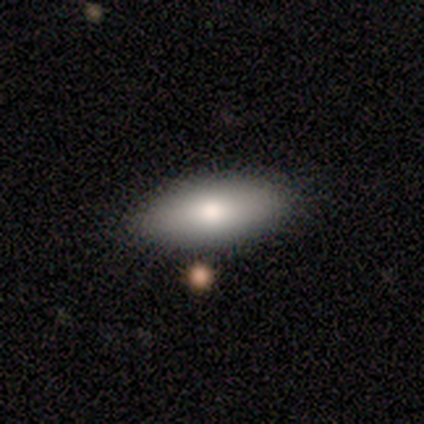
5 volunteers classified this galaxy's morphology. This is clearly a smooth galaxy (80%). How rounded: possibly in between (50%, tied with cigar-shaped). Merging: marginally none (40%, tied with major disturbance).